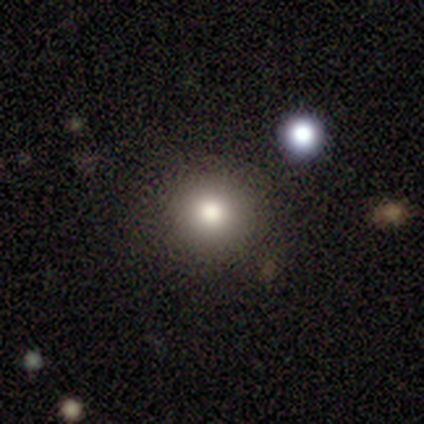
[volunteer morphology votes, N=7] Smooth or featured: smooth — 57% (featured or disk — 43%)
How rounded: round — 100%
Merging: none — 86% (merger — 14%)